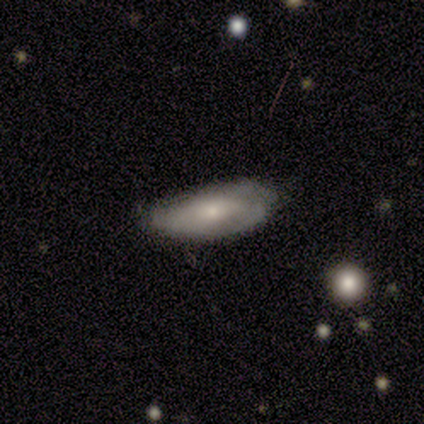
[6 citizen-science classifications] smooth-or-featured: smooth: 83% | featured or disk: 17% | star or artifact: 0%
  how-rounded: in between: 100% | round: 0% | cigar-shaped: 0%
  merging: none: 50% (tied) | minor disturbance: 50% (tied) | major disturbance: 0% | merger: 0%